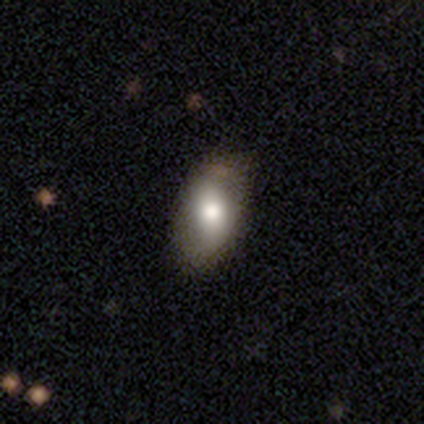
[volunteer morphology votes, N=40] This appears to be a smooth galaxy with no disk features (55%) that is in between round and cigar-shaped (100%). Merging: none (62%).